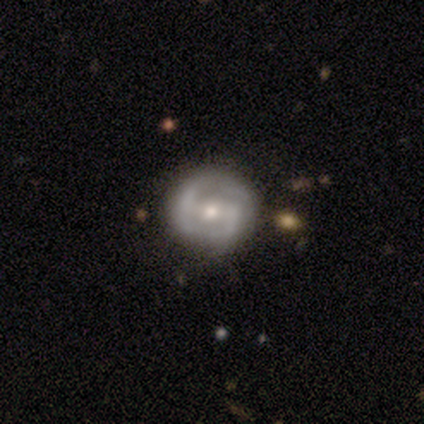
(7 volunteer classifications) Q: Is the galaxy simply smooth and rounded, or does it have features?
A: featured or disk — 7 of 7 (100%).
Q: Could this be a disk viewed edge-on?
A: no — 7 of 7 (100%).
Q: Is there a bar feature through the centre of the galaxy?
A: weak — 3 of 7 (43%).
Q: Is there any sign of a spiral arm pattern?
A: yes — 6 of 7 (86%).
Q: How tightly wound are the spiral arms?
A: medium — 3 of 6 (50%).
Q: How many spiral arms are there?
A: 2 — 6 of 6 (100%).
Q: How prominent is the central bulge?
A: small — 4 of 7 (57%).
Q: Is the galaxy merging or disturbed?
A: none — 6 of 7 (86%).